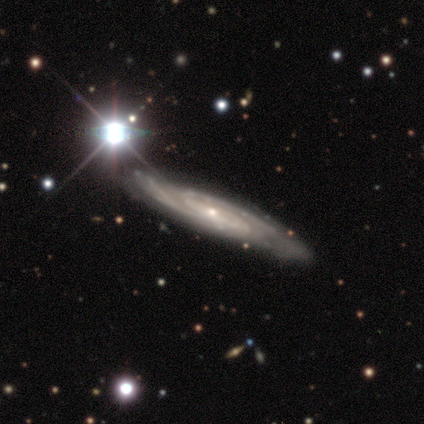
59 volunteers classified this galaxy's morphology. Smooth or featured: featured or disk — 86% (star or artifact — 8%)
Edge-on disk: no — 71% (yes — 29%)
Bar: no — 61% (weak — 28%)
Spiral arms: yes — 97% (no — 3%)
Spiral winding: medium — 49% (tight — 43%)
Spiral arm count: 2 — 57% (can't tell — 34%)
Bulge size: small — 83% (moderate — 11%)
Merging: none — 65% (minor disturbance — 19%)